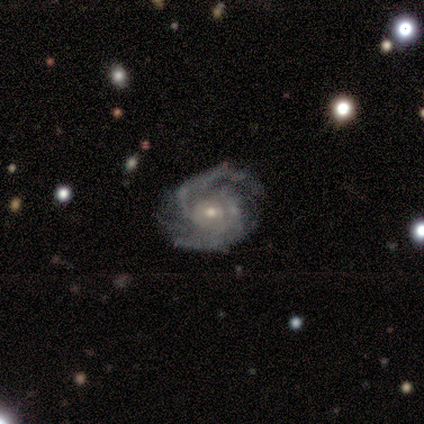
smooth_or_featured: featured or disk (p=0.92) [alt: star or artifact p=0.08]
disk_edge_on: no (p=1.00)
bar: no (p=0.73) [alt: weak p=0.27]
has_spiral_arms: yes (p=1.00)
spiral_winding: tight (p=0.55) [alt: medium p=0.36]
spiral_arm_count: 2 (p=0.73) [alt: 3 p=0.09]
bulge_size: small (p=0.64) [alt: moderate p=0.18]
merging: none (p=0.55) [alt: minor disturbance p=0.45]